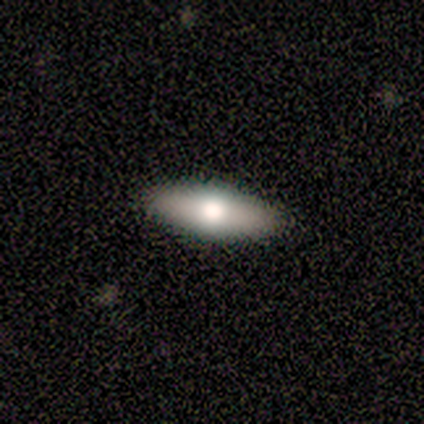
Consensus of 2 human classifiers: Smooth or featured? smooth (100%)
How rounded? in between (50%, tied with cigar-shaped)
Merging? none (100%)